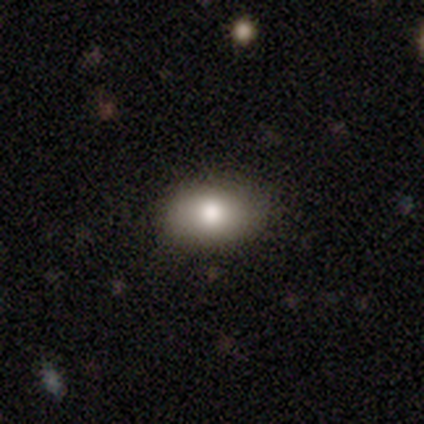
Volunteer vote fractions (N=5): Smooth or featured?
  - smooth: 80% *
  - star or artifact: 20%
  - featured or disk: 0%
How rounded?
  - in between: 75% *
  - round: 25%
  - cigar-shaped: 0%
Merging?
  - none: 50% * (tied)
  - minor disturbance: 50% * (tied)
  - major disturbance: 0%
  - merger: 0%